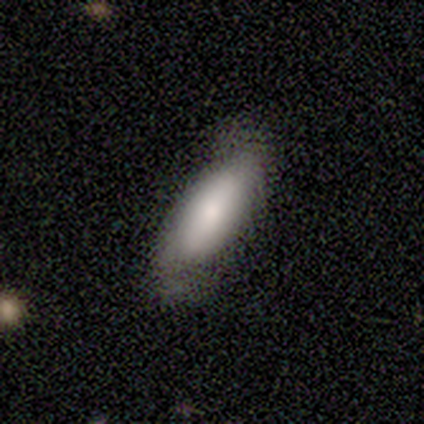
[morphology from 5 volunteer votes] Smooth or featured?
  - smooth: 80% *
  - featured or disk: 20%
  - star or artifact: 0%
How rounded?
  - in between: 50% * (tied)
  - cigar-shaped: 50% * (tied)
  - round: 0%
Merging?
  - none: 80% *
  - minor disturbance: 20%
  - major disturbance: 0%
  - merger: 0%